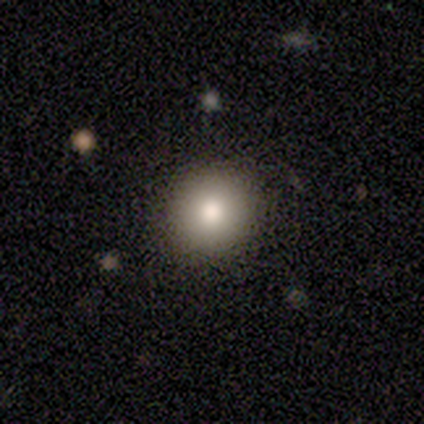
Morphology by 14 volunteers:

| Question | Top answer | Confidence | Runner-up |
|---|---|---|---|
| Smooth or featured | smooth | 86% | featured or disk (14%) |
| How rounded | round | 75% | in between (25%) |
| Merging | none | 79% | minor disturbance (14%) |